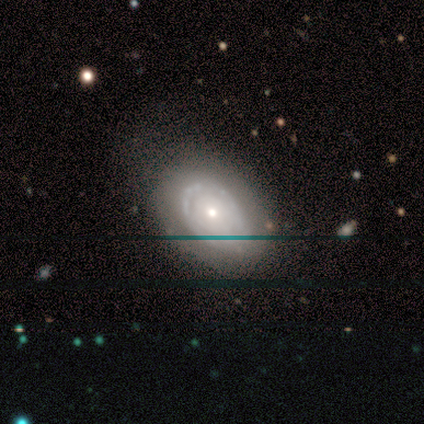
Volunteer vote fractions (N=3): A smooth galaxy with no disk features (67%) that is round (50%, tied with in between).

Vote fractions:
- Smooth or featured? smooth: 67% / featured or disk: 33% / star or artifact: 0%
- How rounded? round: 50% (tied) / in between: 50% (tied) / cigar-shaped: 0%
- Merging? none: 67% / minor disturbance: 33% / major disturbance: 0% / merger: 0%